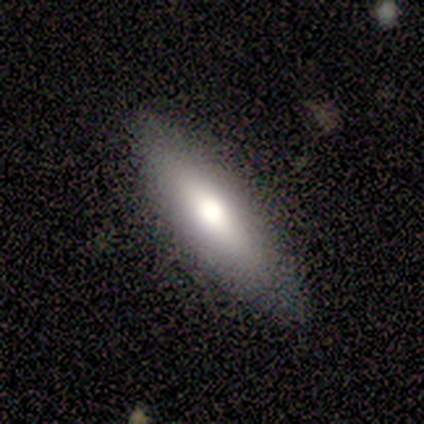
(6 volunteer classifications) smooth-or-featured: featured or disk: 67% | smooth: 17% | star or artifact: 17%
  disk-edge-on: yes: 75% | no: 25%
    edge-on-bulge: rounded: 67% | boxy: 33% | none: 0%
  merging: none: 80% | minor disturbance: 20% | major disturbance: 0% | merger: 0%